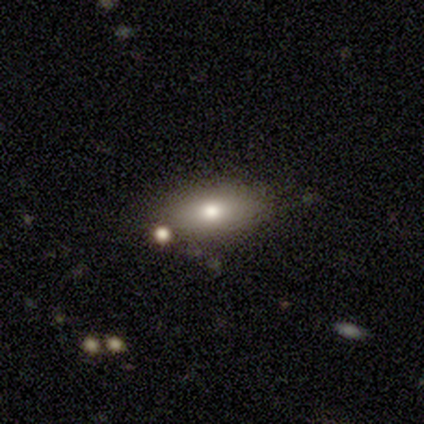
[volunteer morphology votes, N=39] A smooth galaxy with no disk features (74%) that is in between round and cigar-shaped (69%). Merging: none (81%).